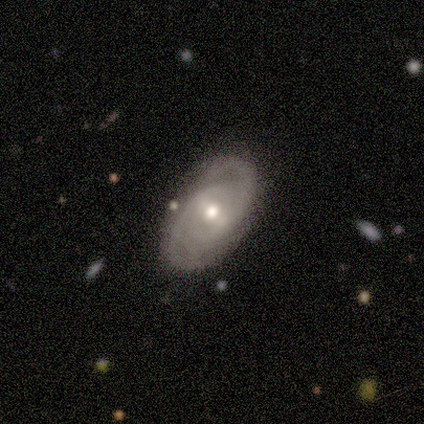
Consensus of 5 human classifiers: Smooth or featured?
  - featured or disk: 100% *
  - smooth: 0%
  - star or artifact: 0%
Edge-on disk?
  - no: 100% *
  - yes: 0%
Bar?
  - weak: 100% *
  - strong: 0%
  - no: 0%
Spiral arms?
  - yes: 100% *
  - no: 0%
Spiral winding?
  - tight: 60% *
  - medium: 40%
  - loose: 0%
Spiral arm count?
  - 2: 100% *
  - 1: 0%
  - 3: 0%
  - 4: 0%
  - more than 4: 0%
  - can't tell: 0%
Bulge size?
  - moderate: 100% *
  - dominant: 0%
  - large: 0%
  - small: 0%
  - none: 0%
Merging?
  - none: 80% *
  - major disturbance: 20%
  - minor disturbance: 0%
  - merger: 0%